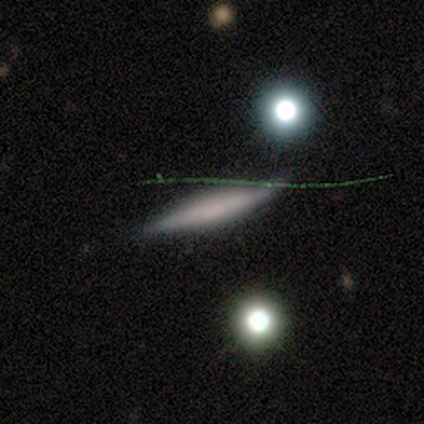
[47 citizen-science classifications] This appears to be a featured or disk galaxy (43%) viewed edge-on (90%) with no central bulge (61%). Merging: none (87%).